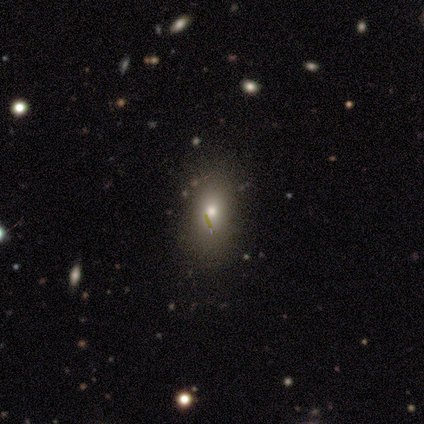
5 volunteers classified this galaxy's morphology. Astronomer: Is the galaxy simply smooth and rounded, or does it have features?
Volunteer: star or artifact — 60%.